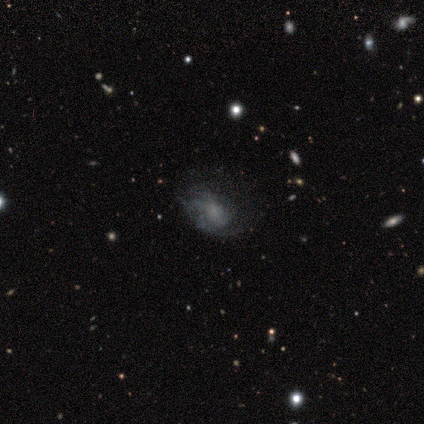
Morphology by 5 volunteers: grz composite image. It shows a featured or disk galaxy (100%) with no bar (100%), 1 (33%, tied with 3 and can't tell) tight (67%) spiral arms (60%) and a small central bulge (40%, tied with none). Merging: none (60%).